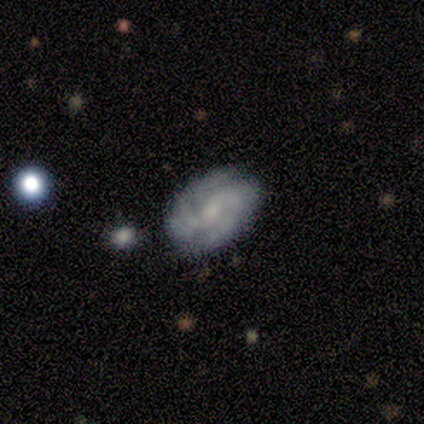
Volunteers were most divided on "bulge size": small: 56%, moderate: 33%, large: 11%, dominant: 0%, none: 0%. More confident: edge-on disk — no (100%); spiral arms — yes (100%); smooth or featured — featured or disk (90%); bar — no (89%); spiral arm count — 2 (67%); merging — none (67%); spiral winding — tight (56%).